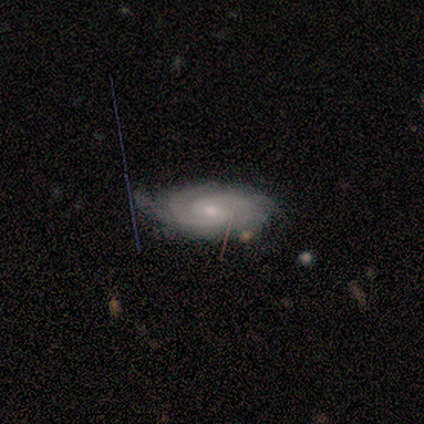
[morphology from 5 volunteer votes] This is clearly a featured or disk galaxy (100%). It is clearly not viewed edge-on (100%). Bar: clearly weak (100%). Spiral arm pattern: clearly yes (100%). Spiral arm count: marginally 2 (40%, tied with 3). Spiral winding: likely tight (60%). Central bulge: likely small (60%). Merging: likely minor disturbance (60%).